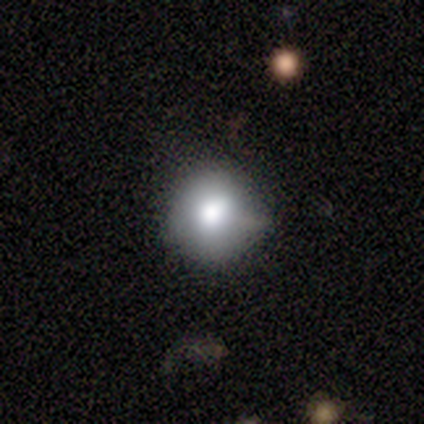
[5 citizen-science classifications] Q: Smooth or featured?
A: smooth (60%); runner-up: featured or disk (40%)
Q: How rounded?
A: round (100%)
Q: Merging?
A: none (80%); runner-up: minor disturbance (20%)